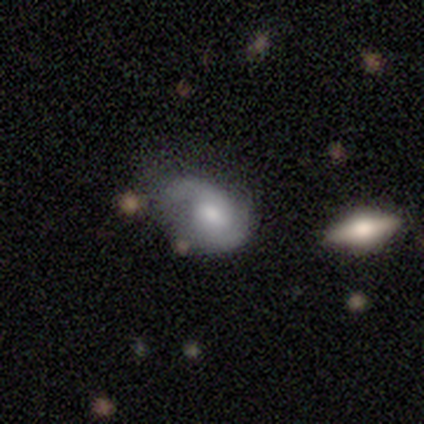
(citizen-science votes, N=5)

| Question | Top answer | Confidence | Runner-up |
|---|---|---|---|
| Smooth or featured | featured or disk | 80% | smooth (20%) |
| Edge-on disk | no | 100% | — |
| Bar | weak | 50% | tied: no (50%) |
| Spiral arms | yes | 100% | — |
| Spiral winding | medium | 50% | tight (25%) |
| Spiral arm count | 2 | 75% | 1 (25%) |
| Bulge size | large | 50% | tied: moderate (50%) |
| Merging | merger | 40% | none (20%) |